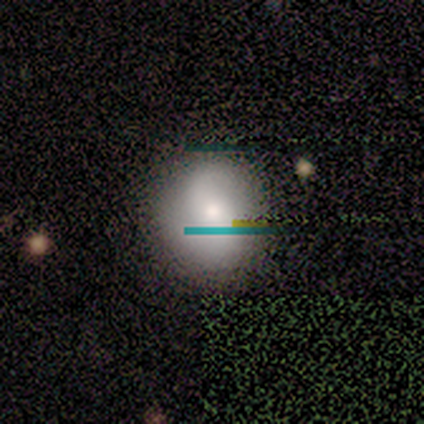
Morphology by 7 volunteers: Smooth or featured? 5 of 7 (71%) said smooth. How rounded? 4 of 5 (80%) said round. Merging? 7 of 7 (100%) said none.